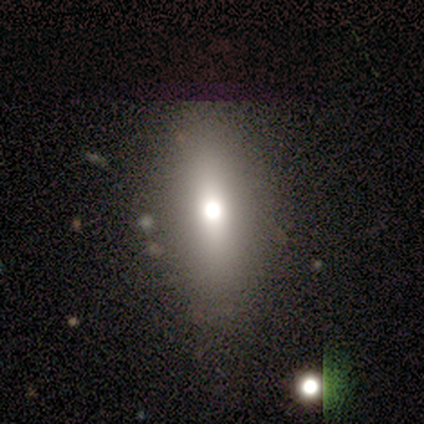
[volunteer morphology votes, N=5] Smooth or featured? smooth (40%, tied with star or artifact)
How rounded? in between (100%)
Merging? none (100%)